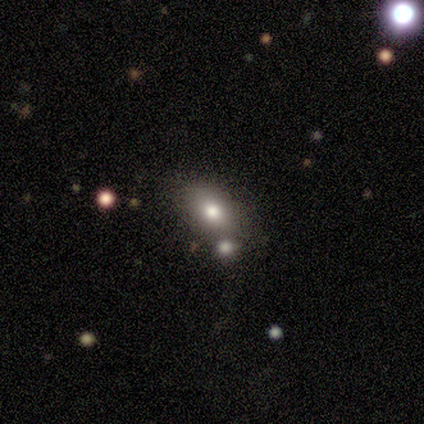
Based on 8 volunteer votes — Volunteers were most divided on "smooth or featured": smooth: 75%, featured or disk: 25%, star or artifact: 0%. More confident: how rounded — in between (100%); merging — none (88%).